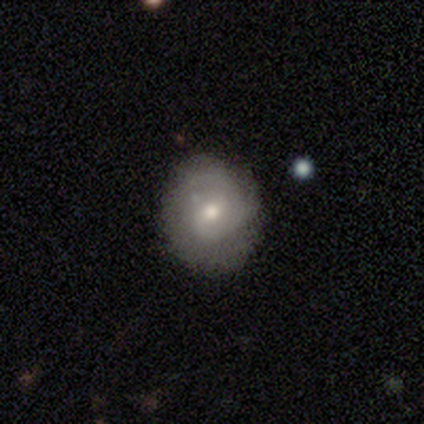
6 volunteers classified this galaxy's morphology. smooth_or_featured: featured or disk (p=1.00)
disk_edge_on: no (p=1.00)
bar: no (p=0.50) [alt: weak p=0.33]
has_spiral_arms: yes (p=1.00)
spiral_winding: tight (p=0.33) [tied with: medium p=0.33, loose p=0.33]
spiral_arm_count: 1 (p=0.50) [alt: 2 p=0.33]
bulge_size: moderate (p=0.50) [tied with: small p=0.50]
merging: none (p=0.83) [alt: minor disturbance p=0.17]